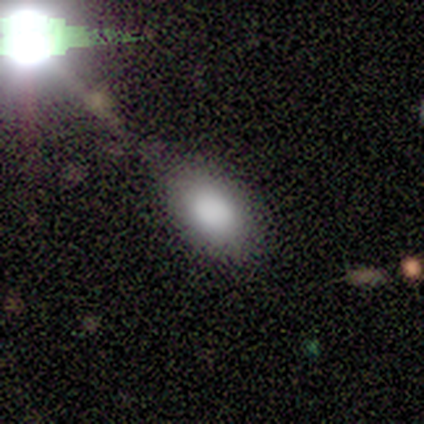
Smooth or featured? 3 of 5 (60%) said smooth. How rounded? 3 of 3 (100%) said in between. Merging? 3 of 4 (75%) said none.